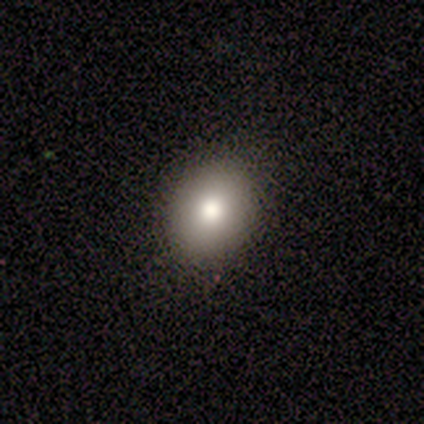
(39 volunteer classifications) Volunteers were most divided on "how rounded": in between: 52%, round: 48%, cigar-shaped: 0%. More confident: merging — none (91%); smooth or featured — smooth (64%).